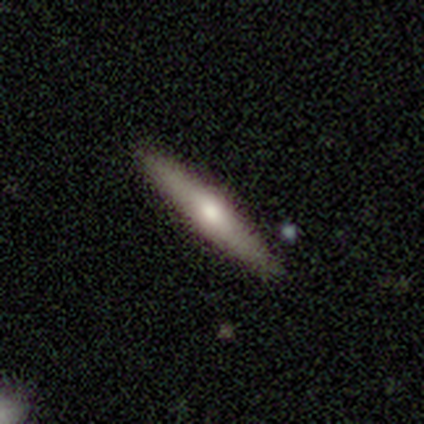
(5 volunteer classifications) Overall: featured or disk (60%; smooth 40%). Edge-on disk: yes (100%). Edge-on bulge: rounded (100%). Merging: none (100%).